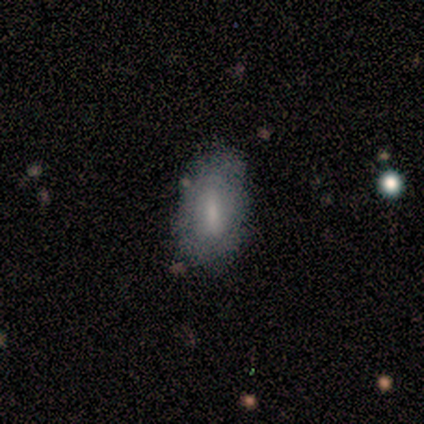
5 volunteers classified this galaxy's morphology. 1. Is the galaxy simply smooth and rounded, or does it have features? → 60% smooth, 20% featured or disk, 20% star or artifact.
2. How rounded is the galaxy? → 100% in between, 0% round, 0% cigar-shaped.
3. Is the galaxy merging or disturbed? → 75% none, 25% minor disturbance, 0% major disturbance, 0% merger.